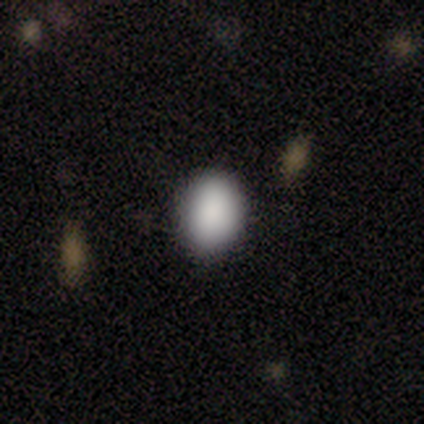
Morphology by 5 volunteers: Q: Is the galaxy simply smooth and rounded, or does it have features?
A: smooth — 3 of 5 (60%).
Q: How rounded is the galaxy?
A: in between — 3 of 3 (100%).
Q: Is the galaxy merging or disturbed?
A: none — 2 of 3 (67%).